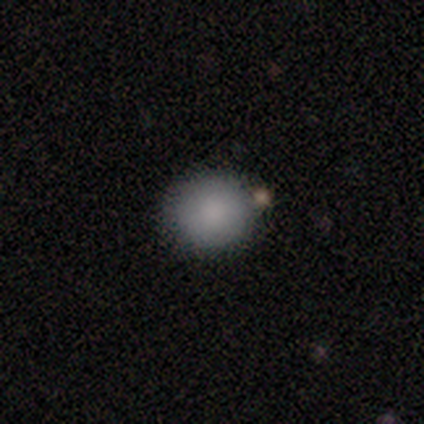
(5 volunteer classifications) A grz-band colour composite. It shows a smooth galaxy with no disk features (100%) that is round (100%). Merging: none (100%).